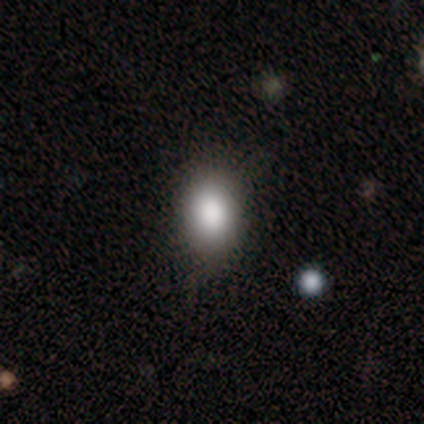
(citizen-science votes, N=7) A smooth galaxy with no disk features (100%) that is in between round and cigar-shaped (100%).

Vote fractions:
- Smooth or featured? smooth: 100% / featured or disk: 0% / star or artifact: 0%
- How rounded? in between: 100% / round: 0% / cigar-shaped: 0%
- Merging? none: 71% / minor disturbance: 29% / major disturbance: 0% / merger: 0%